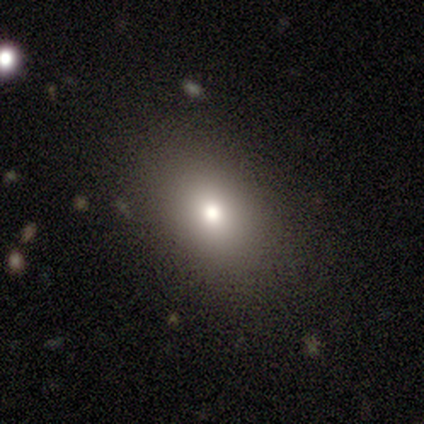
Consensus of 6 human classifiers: A smooth galaxy with no disk features (67%) that is in between round and cigar-shaped (50%).

Vote fractions:
- Smooth or featured? smooth: 67% / featured or disk: 17% / star or artifact: 17%
- How rounded? in between: 50% / round: 25% / cigar-shaped: 25%
- Merging? none: 80% / minor disturbance: 20% / major disturbance: 0% / merger: 0%